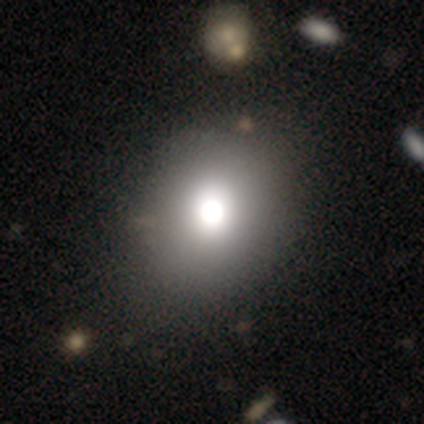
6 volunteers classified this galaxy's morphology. This appears to be a featured or disk galaxy (50%) with no bar (100%), no spiral arms (100%) and a dominant central bulge (33%, tied with large and moderate). Merging: none (80%).